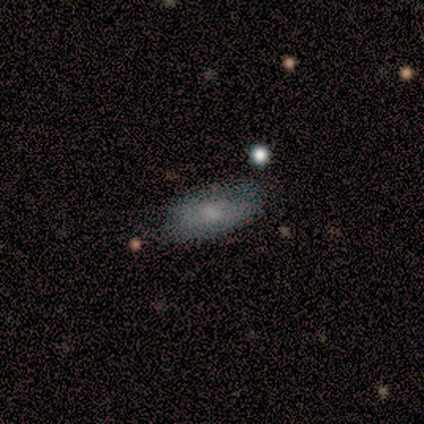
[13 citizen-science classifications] Smooth or featured? 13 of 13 (100%) said smooth. How rounded? 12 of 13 (92%) said in between. Merging? 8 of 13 (62%) said none.